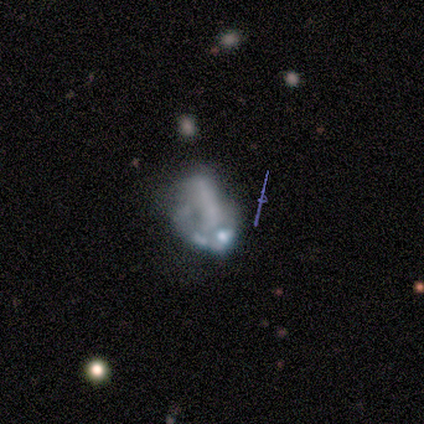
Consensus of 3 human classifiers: Volunteers were most divided on "bar": no: 67%, strong: 33%, weak: 0%. More confident: smooth or featured — featured or disk (100%); edge-on disk — no (100%); spiral arms — no (100%); bulge size — none (67%); merging — major disturbance (67%).